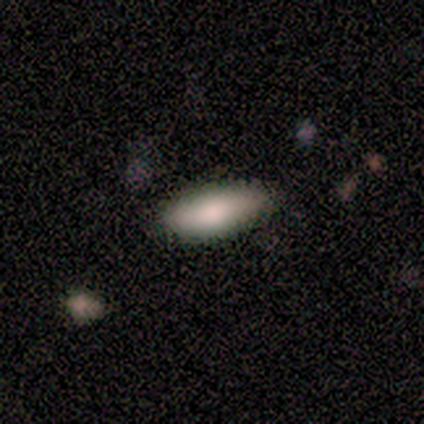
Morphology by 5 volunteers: type=smooth (80%); roundness=in between (50%, tied with cigar-shaped); merging=none (60%).